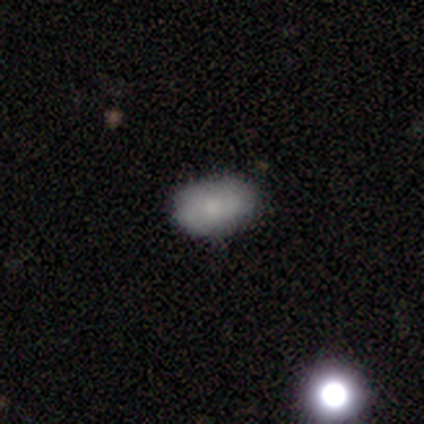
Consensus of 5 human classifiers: A smooth galaxy with no disk features (80%) that is in between round and cigar-shaped (100%). Merging: none (100%).